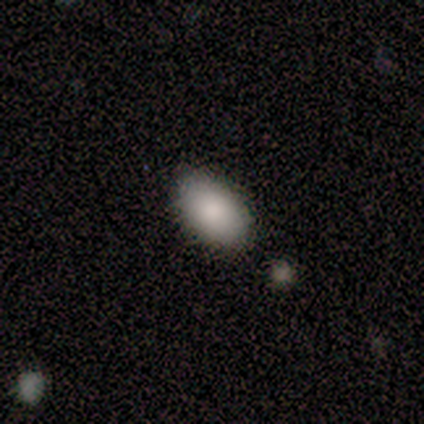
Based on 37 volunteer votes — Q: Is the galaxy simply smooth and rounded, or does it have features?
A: smooth — 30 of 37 (81%).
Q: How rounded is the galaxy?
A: in between — 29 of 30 (97%).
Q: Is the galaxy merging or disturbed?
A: none — 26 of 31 (84%).